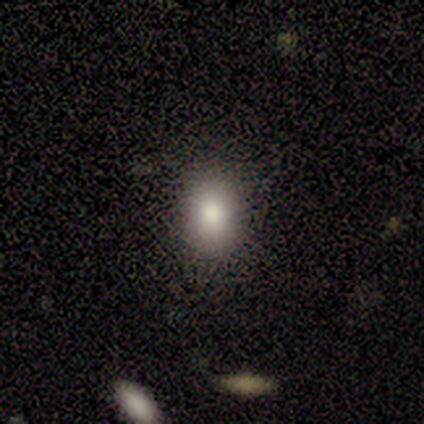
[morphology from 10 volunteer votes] Q: Smooth or featured?
A: smooth (90%); runner-up: featured or disk (10%)
Q: How rounded?
A: round (56%); runner-up: in between (44%)
Q: Merging?
A: none (70%); runner-up: minor disturbance (30%)